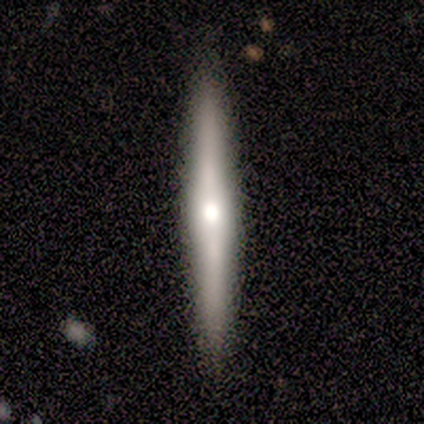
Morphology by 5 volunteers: A featured or disk galaxy (80%) viewed edge-on (100%) with a rounded central bulge (100%).

Vote fractions:
- Smooth or featured? featured or disk: 80% / smooth: 20% / star or artifact: 0%
- Edge-on disk? yes: 100% / no: 0%
- Edge-on bulge? rounded: 100% / boxy: 0% / none: 0%
- Merging? none: 100% / minor disturbance: 0% / major disturbance: 0% / merger: 0%